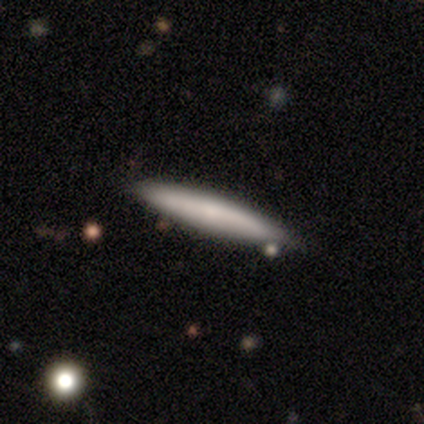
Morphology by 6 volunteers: This appears to be a smooth galaxy with no disk features (83%) that is cigar-shaped (100%). Merging: none (83%).